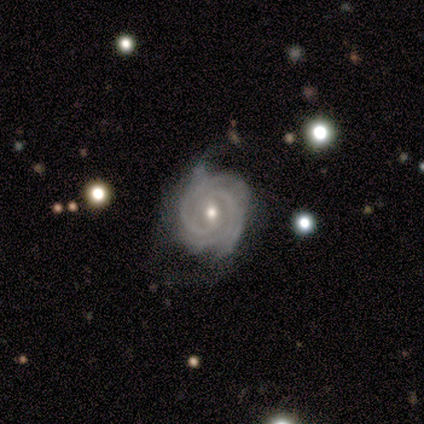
Smooth or featured?
  - featured or disk: 80% *
  - star or artifact: 20%
  - smooth: 0%
Edge-on disk?
  - no: 100% *
  - yes: 0%
Bar?
  - no: 100% *
  - strong: 0%
  - weak: 0%
Spiral arms?
  - yes: 100% *
  - no: 0%
Spiral winding?
  - tight: 75% *
  - medium: 25%
  - loose: 0%
Spiral arm count?
  - 3: 75% *
  - can't tell: 25%
  - 1: 0%
  - 2: 0%
  - 4: 0%
  - more than 4: 0%
Bulge size?
  - small: 75% *
  - moderate: 25%
  - dominant: 0%
  - large: 0%
  - none: 0%
Merging?
  - minor disturbance: 100% *
  - none: 0%
  - major disturbance: 0%
  - merger: 0%